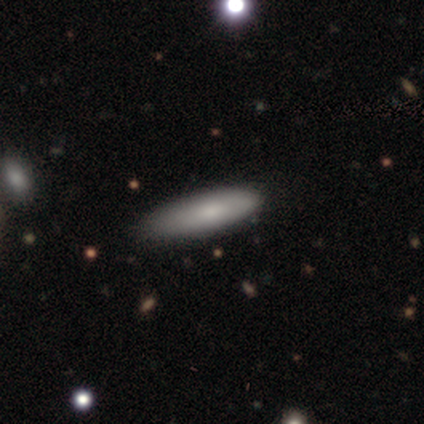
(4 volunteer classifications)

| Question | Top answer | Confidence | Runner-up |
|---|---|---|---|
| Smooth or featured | smooth | 75% | featured or disk (25%) |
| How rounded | cigar-shaped | 67% | in between (33%) |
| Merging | none | 75% | major disturbance (25%) |